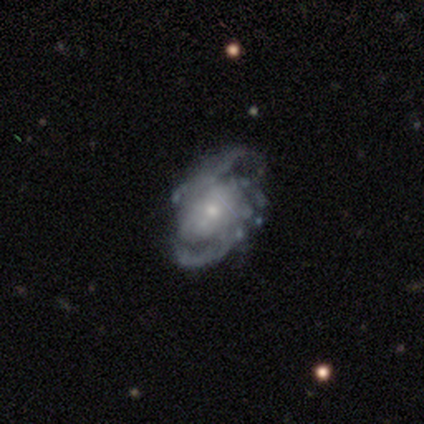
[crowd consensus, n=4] Smooth or featured? 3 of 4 (75%) said featured or disk. Edge-on disk? 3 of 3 (100%) said no. Bar? 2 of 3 (67%) said no. Spiral arms? 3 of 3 (100%) said yes. Spiral winding? 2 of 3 (67%) said medium. Spiral arm count? 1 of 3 (33%, tied with 3 and can't tell) said 2. Bulge size? 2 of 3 (67%) said moderate. Merging? 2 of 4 (50%, tied with minor disturbance) said none.